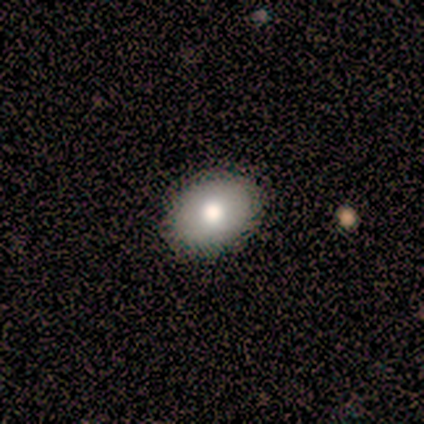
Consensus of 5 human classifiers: smooth-or-featured: smooth: 80% | featured or disk: 20% | star or artifact: 0%
  how-rounded: round: 50% (tied) | in between: 50% (tied) | cigar-shaped: 0%
  merging: none: 80% | minor disturbance: 20% | major disturbance: 0% | merger: 0%